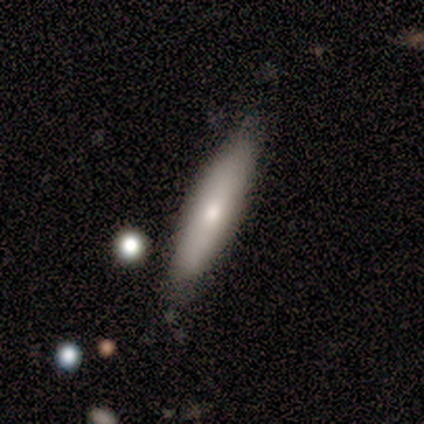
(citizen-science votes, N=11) smooth 64%, featured or disk 36%, star or artifact 0%. Down the decision tree: how rounded — cigar-shaped (57%); merging — none (73%).